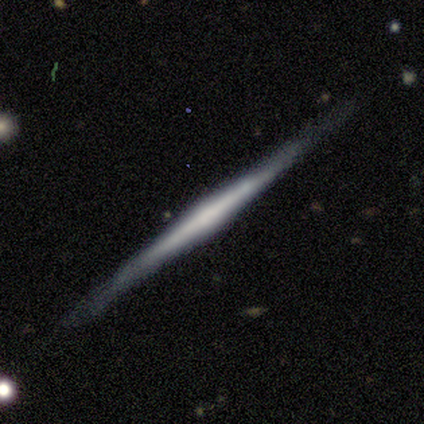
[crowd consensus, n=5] Smooth or featured: featured or disk — 100%
Edge-on disk: yes — 100%
Edge-on bulge: none — 40% (tied with rounded — 40%)
Merging: none — 80% (minor disturbance — 20%)